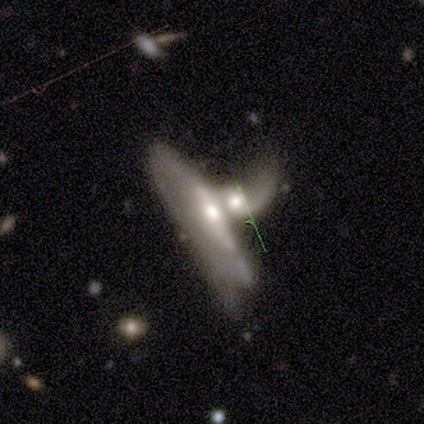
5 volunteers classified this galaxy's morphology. smooth_or_featured: featured or disk (p=1.00)
disk_edge_on: yes (p=0.60) [alt: no p=0.40]
edge_on_bulge: rounded (p=1.00)
merging: merger (p=0.80) [alt: none p=0.20]